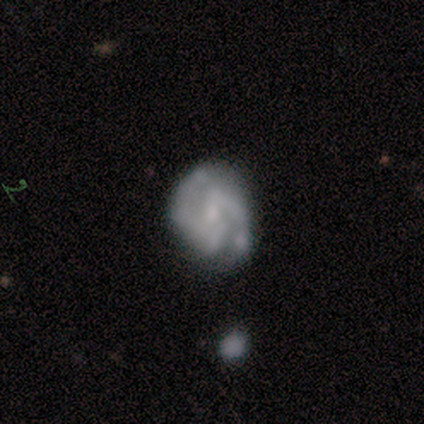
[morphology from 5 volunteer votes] smooth_or_featured: smooth (p=0.80) [alt: featured or disk p=0.20]
how_rounded: round (p=0.50) [tied with: in between p=0.50]
merging: none (p=0.40) [alt: minor disturbance p=0.20]